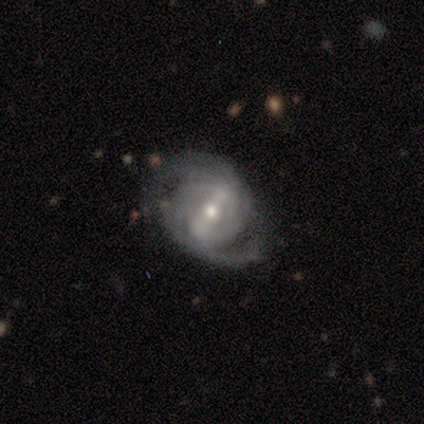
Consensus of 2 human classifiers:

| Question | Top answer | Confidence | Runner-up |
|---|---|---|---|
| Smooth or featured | featured or disk | 50% | tied: star or artifact (50%) |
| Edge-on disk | no | 100% | — |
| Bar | weak | 100% | — |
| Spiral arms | yes | 100% | — |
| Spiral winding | tight | 100% | — |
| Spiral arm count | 4 | 100% | — |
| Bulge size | moderate | 100% | — |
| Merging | none | 100% | — |